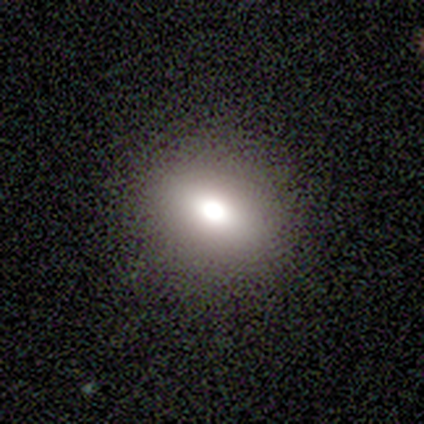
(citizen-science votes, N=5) smooth_or_featured: smooth (p=0.80) [alt: featured or disk p=0.20]
how_rounded: round (p=0.50) [tied with: in between p=0.50]
merging: none (p=0.80) [alt: minor disturbance p=0.20]